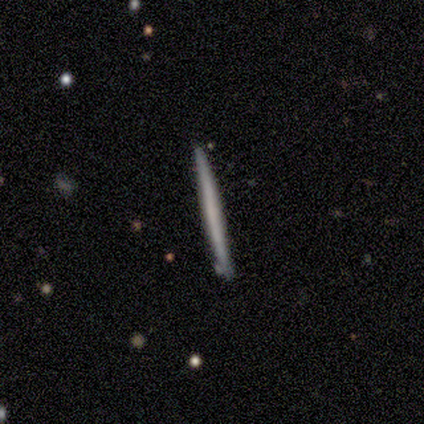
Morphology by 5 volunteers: type=smooth (60%); roundness=cigar-shaped (100%); merging=none (80%).